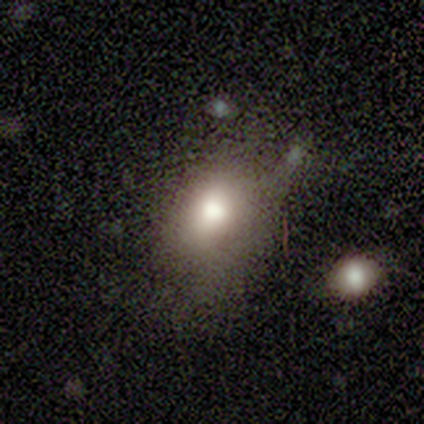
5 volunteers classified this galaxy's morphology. This is clearly a smooth galaxy (100%). How rounded: clearly in between (80%). Merging: marginally none (40%, tied with minor disturbance).